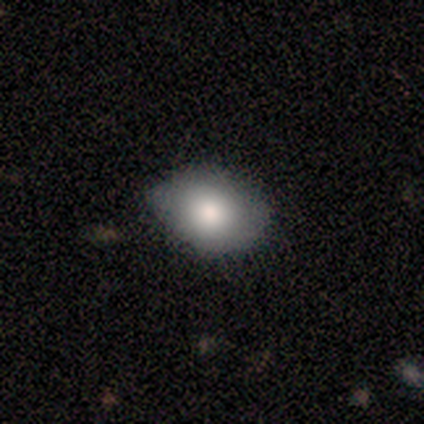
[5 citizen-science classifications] smooth_or_featured: smooth (p=1.00)
how_rounded: in between (p=0.80) [alt: round p=0.20]
merging: none (p=0.60) [alt: minor disturbance p=0.40]